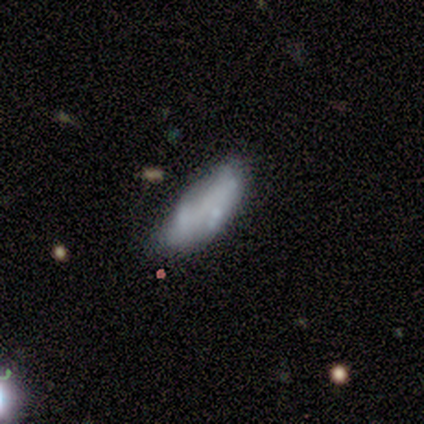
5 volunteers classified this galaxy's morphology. Overall: featured or disk (80%). Edge-on disk: no (100%). Bar: no (75%). Spiral arms: no (75%). Bulge size: moderate (75%). Merging: minor disturbance (80%).